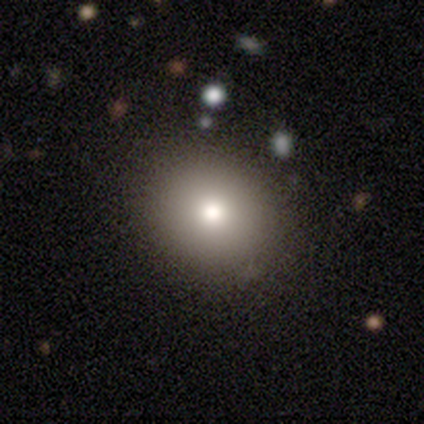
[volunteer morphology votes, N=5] Smooth or featured: smooth — 100%
How rounded: round — 80% (in between — 20%)
Merging: none — 80% (minor disturbance — 20%)